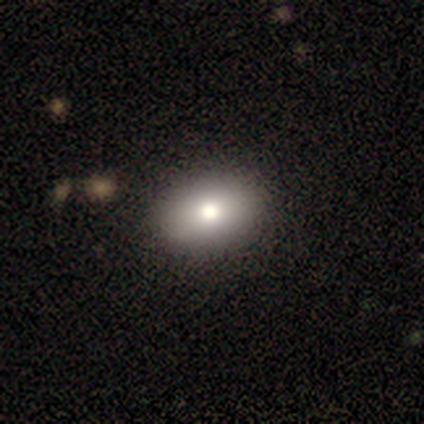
Volunteers were most divided on "how rounded" (2-way tie): round: 50%, in between: 50%, cigar-shaped: 0%. More confident: merging — none (100%); smooth or featured — smooth (67%).